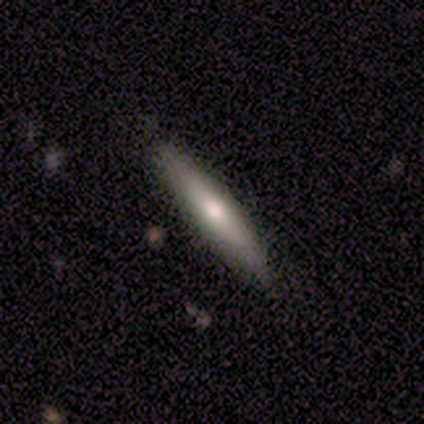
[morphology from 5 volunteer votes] This appears to be a featured or disk galaxy (80%) viewed edge-on (100%) with a rounded central bulge (100%). Merging: none (100%).